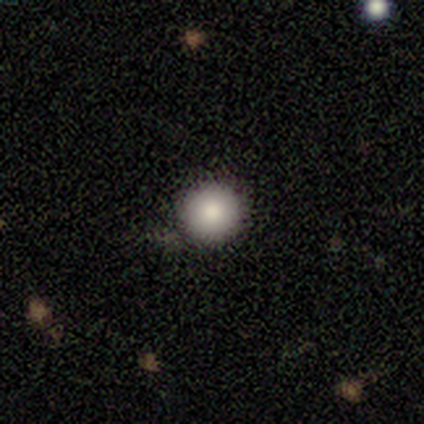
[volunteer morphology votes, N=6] A smooth galaxy with no disk features (83%) that is round (100%). Merging: none (60%).